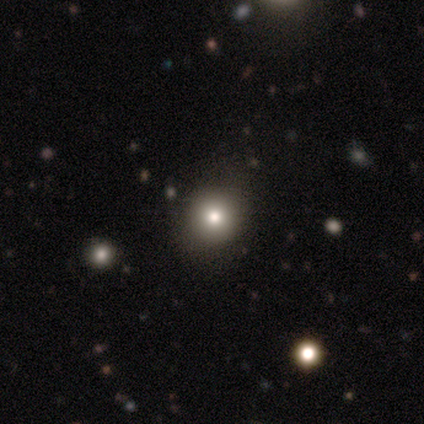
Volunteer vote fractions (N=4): This is likely a smooth galaxy (75%). How rounded: likely round (67%). Merging: likely none (67%).